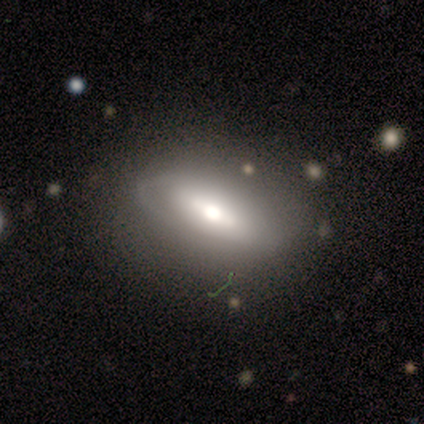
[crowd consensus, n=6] Volunteers were most divided on "spiral winding" (2-way tie): tight: 50%, medium: 50%, loose: 0%; "spiral arm count" (2-way tie): 2: 50%, can't tell: 50%, 1: 0%, 3: 0%, 4: 0%, more than 4: 0%; "bulge size" (3-way tie): large: 33%, moderate: 33%, small: 33%, dominant: 0%, none: 0%. More confident: merging — none (83%); edge-on disk — no (75%); smooth or featured — featured or disk (67%); bar — strong (67%); spiral arms — yes (67%).